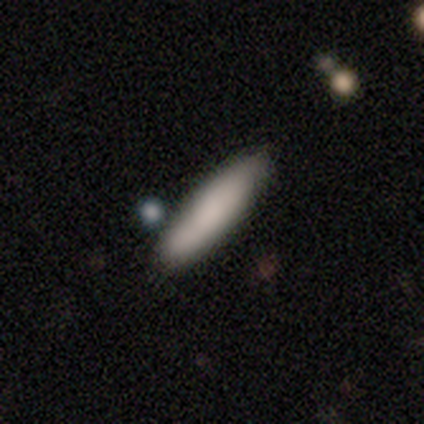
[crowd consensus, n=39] Overall: smooth (82%). How rounded: cigar-shaped (81%). Merging: none (76%).